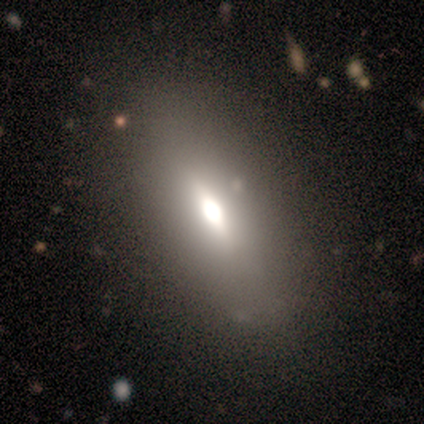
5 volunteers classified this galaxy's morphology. Volunteers were most divided on "smooth or featured" (2-way tie): smooth: 40%, featured or disk: 40%, star or artifact: 20%. More confident: how rounded — in between (100%); merging — none (75%).